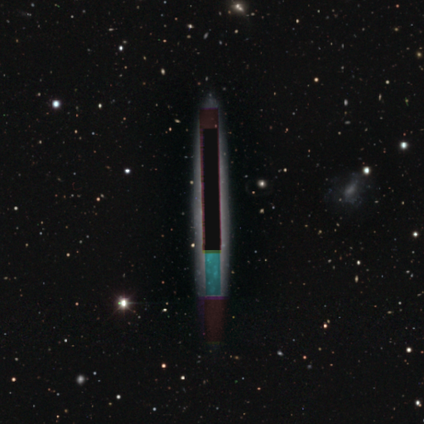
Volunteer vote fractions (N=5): Smooth or featured: star or artifact — 80% (smooth — 20%)